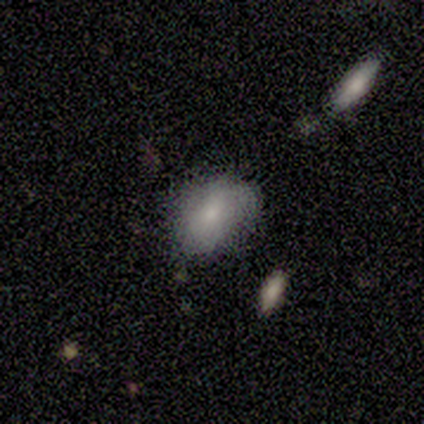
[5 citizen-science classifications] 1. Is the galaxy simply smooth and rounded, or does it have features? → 60% featured or disk, 40% smooth, 0% star or artifact.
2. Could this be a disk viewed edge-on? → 100% no, 0% yes.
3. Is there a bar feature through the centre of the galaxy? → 67% no, 33% weak, 0% strong.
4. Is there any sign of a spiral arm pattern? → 67% no, 33% yes.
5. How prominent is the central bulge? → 100% small, 0% dominant, 0% large, 0% moderate, 0% none.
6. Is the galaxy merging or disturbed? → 80% none, 20% minor disturbance, 0% major disturbance, 0% merger.